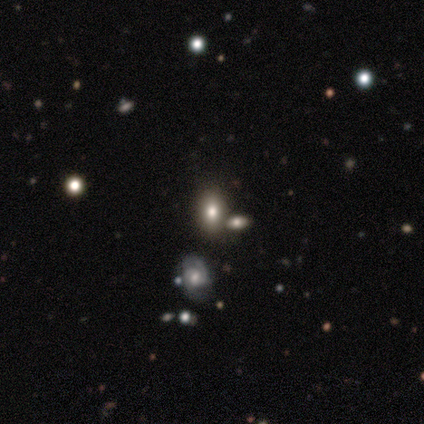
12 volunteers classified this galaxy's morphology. Volunteers were most divided on "smooth or featured": smooth: 42%, star or artifact: 33%, featured or disk: 25%. More confident: how rounded — in between (80%); merging — none (75%).